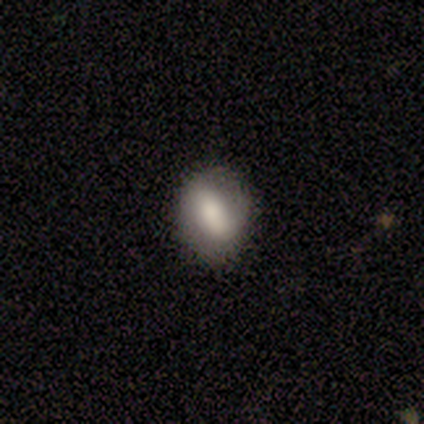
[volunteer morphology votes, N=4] Smooth or featured: featured or disk — 75% (smooth — 25%)
Edge-on disk: no — 100%
Bar: strong — 33% (tied with weak — 33%; no — 33%)
Spiral arms: no — 67% (yes — 33%)
Bulge size: large — 33% (tied with moderate — 33%; small — 33%)
Merging: none — 100%